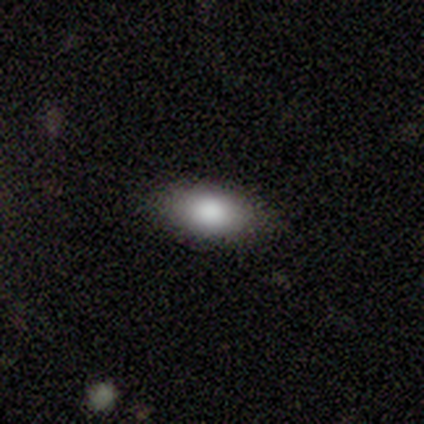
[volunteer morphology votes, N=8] smooth 100%, featured or disk 0%, star or artifact 0%. Down the decision tree: how rounded — in between (100%); merging — none (88%).